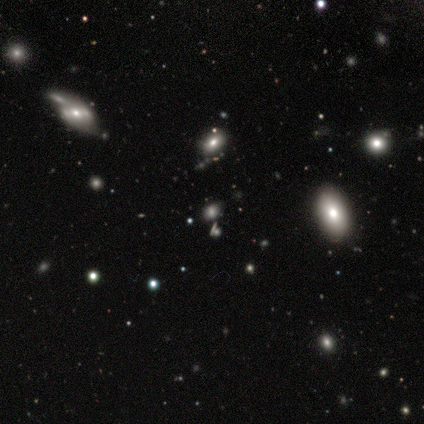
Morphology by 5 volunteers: smooth_or_featured: smooth (p=0.60) [alt: star or artifact p=0.40]
how_rounded: round (p=0.33) [tied with: in between p=0.33, cigar-shaped p=0.33]
merging: none (p=0.67) [alt: minor disturbance p=0.33]